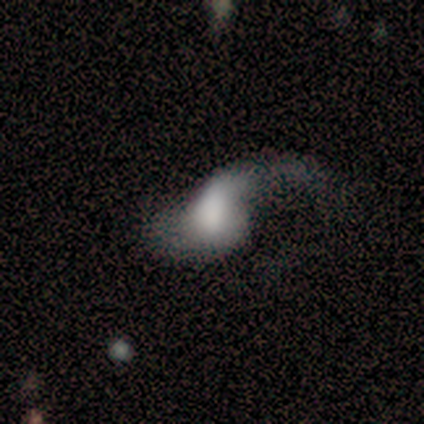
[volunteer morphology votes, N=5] This is likely a smooth galaxy (60%). How rounded: clearly in between (100%). Merging: likely major disturbance (60%).